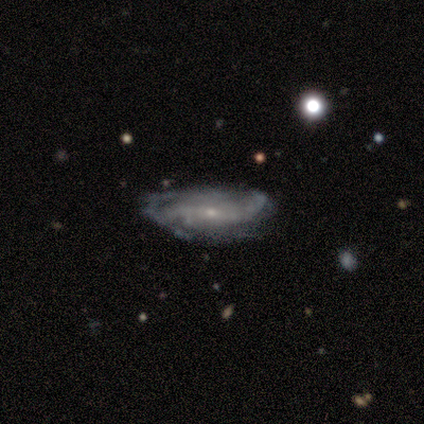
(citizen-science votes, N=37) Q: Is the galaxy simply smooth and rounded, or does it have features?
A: featured or disk — 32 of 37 (86%).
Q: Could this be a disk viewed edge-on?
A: no — 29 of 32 (91%).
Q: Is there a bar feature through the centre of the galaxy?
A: no — 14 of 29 (48%).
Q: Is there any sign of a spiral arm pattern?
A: yes — 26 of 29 (90%).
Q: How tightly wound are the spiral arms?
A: loose — 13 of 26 (50%).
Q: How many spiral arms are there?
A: can't tell — 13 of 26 (50%).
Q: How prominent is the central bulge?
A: small — 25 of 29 (86%).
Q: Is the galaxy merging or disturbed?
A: none — 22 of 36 (61%).